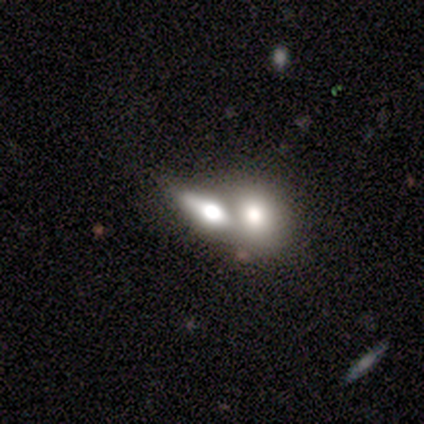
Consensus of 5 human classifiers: smooth_or_featured: smooth (p=0.40) [tied with: featured or disk p=0.40]
how_rounded: in between (p=0.50) [tied with: cigar-shaped p=0.50]
merging: merger (p=0.50) [alt: none p=0.25]